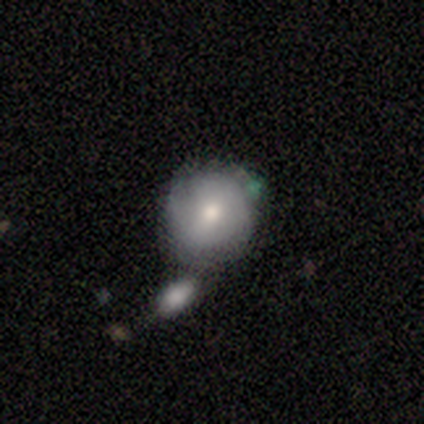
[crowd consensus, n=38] Smooth or featured? smooth (53%)
How rounded? round (90%)
Merging? merger (43%)